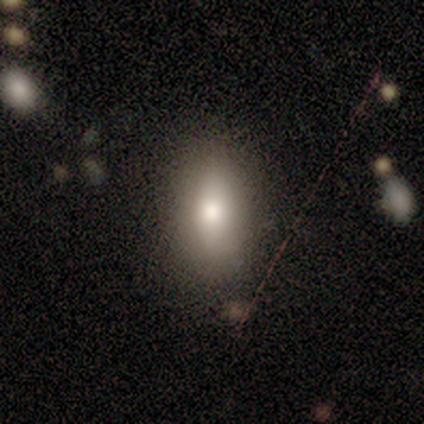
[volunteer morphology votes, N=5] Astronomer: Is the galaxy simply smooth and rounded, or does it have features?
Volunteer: smooth — 60% (runner-up: featured or disk, 40%).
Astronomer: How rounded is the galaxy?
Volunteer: in between — 100%.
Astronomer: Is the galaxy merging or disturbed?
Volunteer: none — 100%.